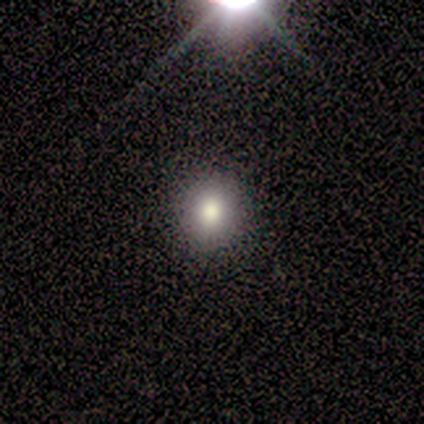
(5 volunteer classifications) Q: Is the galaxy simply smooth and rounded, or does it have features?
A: star or artifact — 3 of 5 (60%).